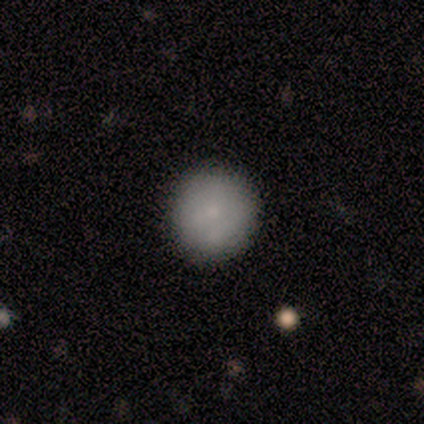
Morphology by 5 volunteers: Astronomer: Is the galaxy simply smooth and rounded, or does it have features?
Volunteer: smooth — 80%.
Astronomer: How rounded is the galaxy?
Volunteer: round — 75%.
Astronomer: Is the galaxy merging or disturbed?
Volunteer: none — 80%.